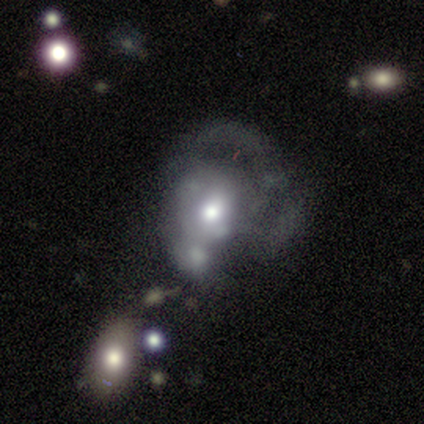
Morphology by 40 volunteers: This is possibly a featured or disk galaxy (57%). It is clearly not viewed edge-on (91%). Bar: clearly no (86%). Spiral arm pattern: likely no (62%). Central bulge: marginally moderate (43%). Merging: possibly major disturbance (47%).